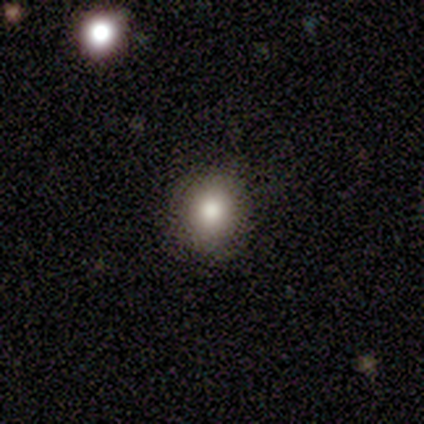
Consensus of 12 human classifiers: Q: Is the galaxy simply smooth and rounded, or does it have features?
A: smooth — 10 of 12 (83%).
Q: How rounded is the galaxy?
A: round — 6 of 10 (60%).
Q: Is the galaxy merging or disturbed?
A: none — 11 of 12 (92%).